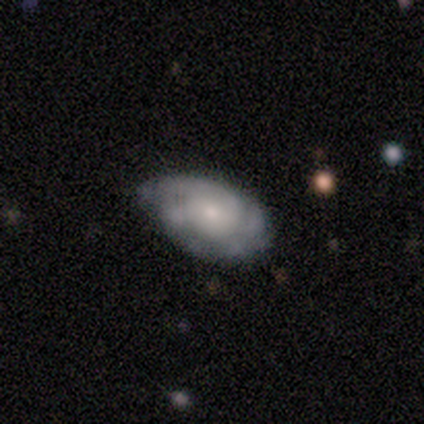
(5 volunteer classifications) featured or disk 60%, smooth 40%, star or artifact 0%. Down the decision tree: edge-on disk — no (100%); bar — no (100%); spiral arms — yes (67%); spiral arm count — 2 (50%, tied with 3); spiral winding — tight (100%); bulge size — small (67%); merging — minor disturbance (60%).